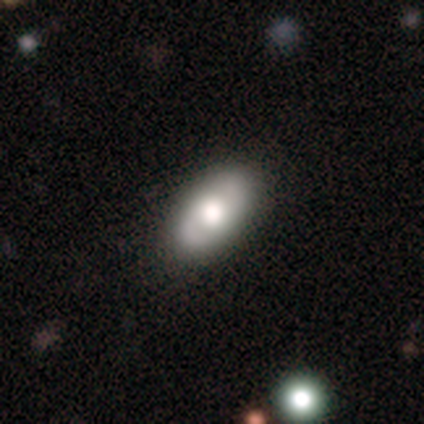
Overall: featured or disk (49%; smooth 44%). Edge-on disk: no (95%). Bar: no (79%). Spiral arms: yes (58%; no 42%). Spiral arm count: 2 (91%). Spiral winding: tight (73%). Bulge size: large (68%). Merging: none (89%).